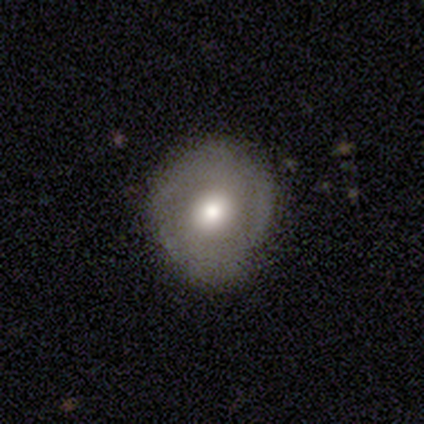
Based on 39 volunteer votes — A smooth galaxy with no disk features (49%, tied with featured or disk) that is round (95%). Merging: none (76%).